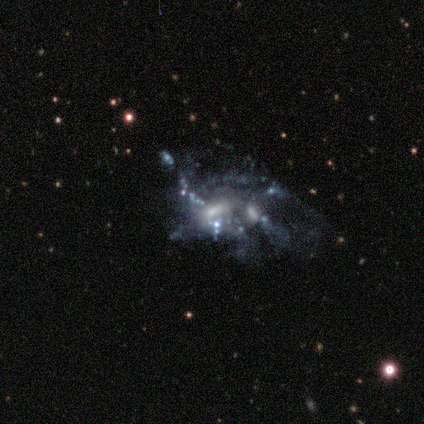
This is clearly a featured or disk galaxy (80%). It is clearly not viewed edge-on (100%). Bar: likely no (62%). Spiral arm pattern: likely no (62%). Central bulge: possibly small (50%, tied with none). Merging: likely merger (60%).